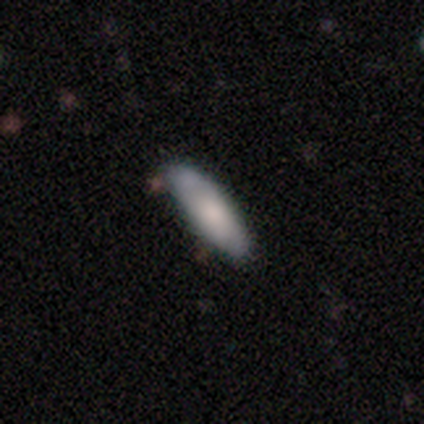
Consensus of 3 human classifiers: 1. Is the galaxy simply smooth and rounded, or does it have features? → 100% smooth, 0% featured or disk, 0% star or artifact.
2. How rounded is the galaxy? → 100% in between, 0% round, 0% cigar-shaped.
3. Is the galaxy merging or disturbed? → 100% none, 0% minor disturbance, 0% major disturbance, 0% merger.